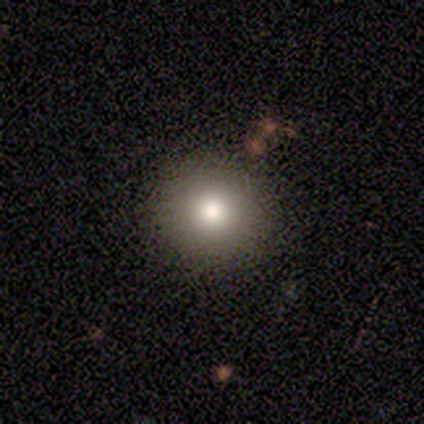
smooth-or-featured: smooth: 60% | star or artifact: 40% | featured or disk: 0%
  how-rounded: round: 100% | in between: 0% | cigar-shaped: 0%
  merging: none: 100% | minor disturbance: 0% | major disturbance: 0% | merger: 0%